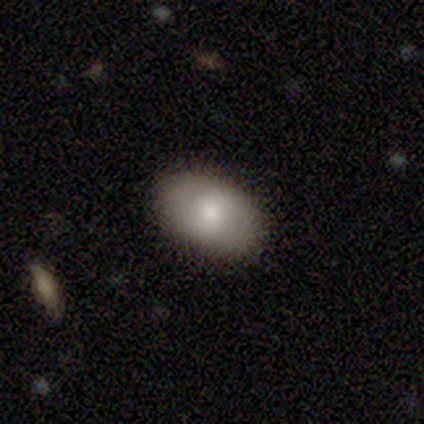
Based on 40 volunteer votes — A smooth galaxy with no disk features (75%) that is in between round and cigar-shaped (83%). Merging: none (97%).